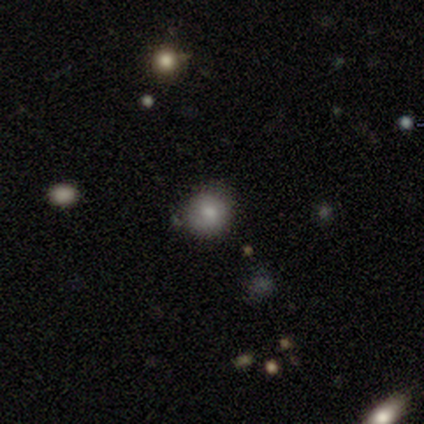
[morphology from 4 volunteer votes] type=smooth (100%); roundness=round (100%); merging=none (100%).